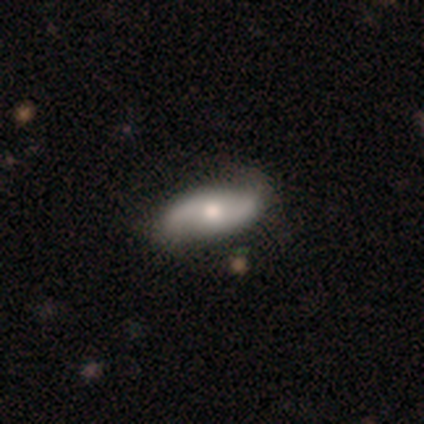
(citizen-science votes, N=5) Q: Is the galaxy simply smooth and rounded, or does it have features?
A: featured or disk — 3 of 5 (60%).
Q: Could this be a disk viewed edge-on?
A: no — 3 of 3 (100%).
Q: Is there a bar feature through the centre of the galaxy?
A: no — 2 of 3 (67%).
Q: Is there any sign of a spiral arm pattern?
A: yes — 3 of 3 (100%).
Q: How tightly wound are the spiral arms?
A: tight — 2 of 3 (67%).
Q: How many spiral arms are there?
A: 2 — 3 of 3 (100%).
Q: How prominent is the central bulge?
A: moderate — 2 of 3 (67%).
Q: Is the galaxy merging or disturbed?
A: none — 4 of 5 (80%).